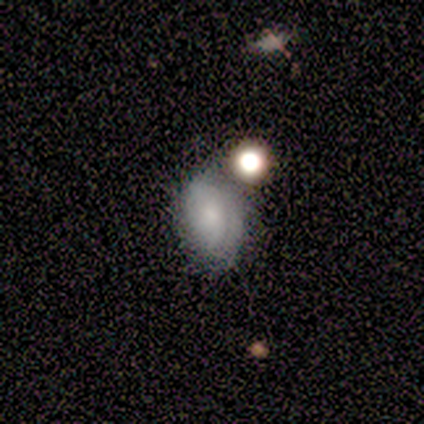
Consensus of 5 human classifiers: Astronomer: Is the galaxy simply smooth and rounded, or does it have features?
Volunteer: featured or disk — 60%.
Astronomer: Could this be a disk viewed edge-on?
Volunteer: no — 100%.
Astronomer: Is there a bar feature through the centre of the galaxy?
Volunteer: no — 100%.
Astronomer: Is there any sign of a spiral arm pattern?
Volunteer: yes — 67%.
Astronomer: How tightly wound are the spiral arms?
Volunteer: medium — 100%.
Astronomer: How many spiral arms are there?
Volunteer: can't tell — 100%.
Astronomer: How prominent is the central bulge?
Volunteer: small — 100%.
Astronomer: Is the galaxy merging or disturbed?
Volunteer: none — 50%.